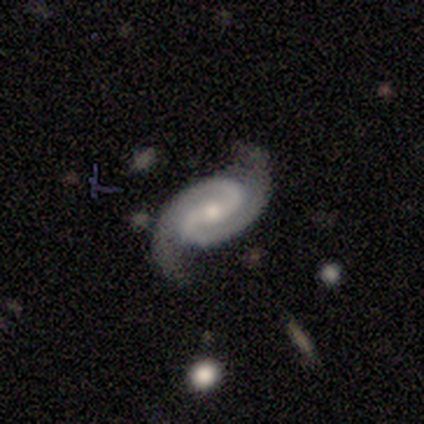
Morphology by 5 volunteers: Q: Smooth or featured?
A: featured or disk (100%)
Q: Edge-on disk?
A: no (100%)
Q: Bar?
A: weak (60%); runner-up: strong (20%)
Q: Spiral arms?
A: yes (100%)
Q: Spiral winding?
A: medium (80%); runner-up: tight (20%)
Q: Spiral arm count?
A: 2 (100%)
Q: Bulge size?
A: small (60%); runner-up: large (20%)
Q: Merging?
A: none (100%)